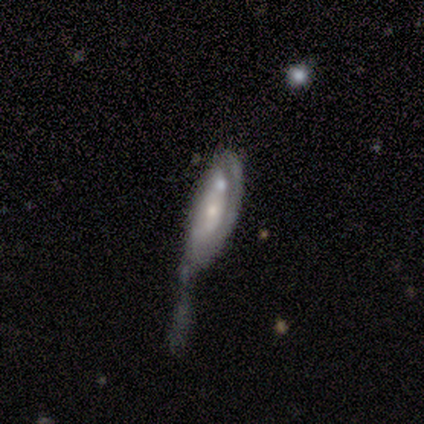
Smooth or featured? featured or disk (72%)
Edge-on disk? no (93%)
Bar? no (88%)
Spiral arms? no (54%)
Bulge size? small (54%)
Merging? major disturbance (51%)